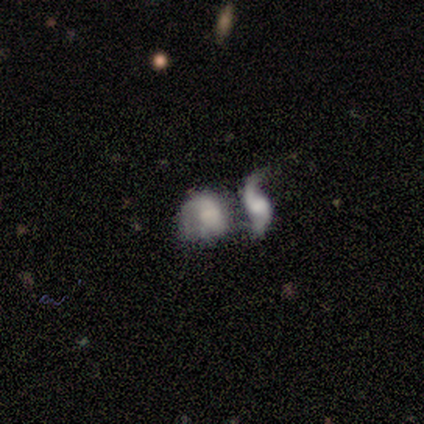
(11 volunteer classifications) Smooth or featured?
  - featured or disk: 64% *
  - smooth: 36%
  - star or artifact: 0%
Edge-on disk?
  - no: 100% *
  - yes: 0%
Bar?
  - weak: 43% * (tied)
  - no: 43% * (tied)
  - strong: 14%
Spiral arms?
  - yes: 100% *
  - no: 0%
Spiral winding?
  - loose: 71% *
  - tight: 14%
  - medium: 14%
Spiral arm count?
  - 2: 57% *
  - can't tell: 43%
  - 1: 0%
  - 3: 0%
  - 4: 0%
  - more than 4: 0%
Bulge size?
  - small: 57% *
  - large: 14%
  - moderate: 14%
  - none: 14%
  - dominant: 0%
Merging?
  - merger: 73% *
  - minor disturbance: 18%
  - none: 9%
  - major disturbance: 0%